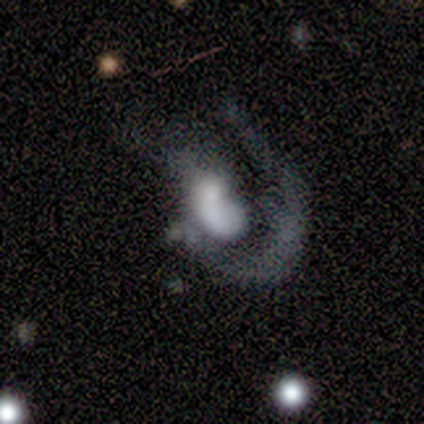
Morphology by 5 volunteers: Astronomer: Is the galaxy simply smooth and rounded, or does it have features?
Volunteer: featured or disk — 80%.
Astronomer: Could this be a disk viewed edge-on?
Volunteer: no — 100%.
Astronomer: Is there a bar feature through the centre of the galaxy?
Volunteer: no — 100%.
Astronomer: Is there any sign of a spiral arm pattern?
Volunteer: no — 75%.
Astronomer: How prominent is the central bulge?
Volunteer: dominant — 25%, tied with large, moderate and small at 25%.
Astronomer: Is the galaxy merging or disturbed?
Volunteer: major disturbance — 60%.